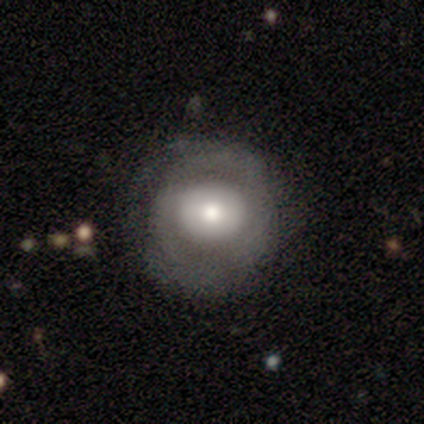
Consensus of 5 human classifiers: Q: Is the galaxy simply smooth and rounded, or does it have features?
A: featured or disk — 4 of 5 (80%).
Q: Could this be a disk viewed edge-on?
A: no — 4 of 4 (100%).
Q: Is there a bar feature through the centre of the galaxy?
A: no — 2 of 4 (50%).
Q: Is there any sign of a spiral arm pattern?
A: yes — 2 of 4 (50%, tied with no).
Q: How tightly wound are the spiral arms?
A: tight — 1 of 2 (50%, tied with loose).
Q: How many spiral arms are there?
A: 2 — 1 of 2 (50%, tied with can't tell).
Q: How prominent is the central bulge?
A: moderate — 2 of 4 (50%).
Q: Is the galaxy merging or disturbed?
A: none — 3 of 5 (60%).